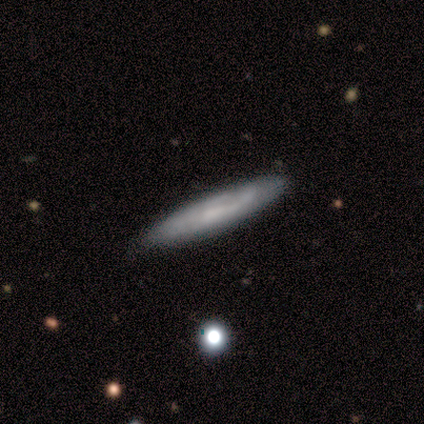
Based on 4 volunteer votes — Volunteers were most divided on "edge-on bulge": rounded: 67%, none: 33%, boxy: 0%. More confident: smooth or featured — featured or disk (100%); merging — none (100%); edge-on disk — yes (75%).